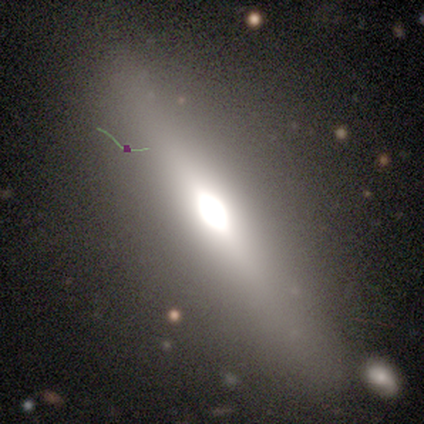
smooth_or_featured: smooth (p=0.60) [alt: featured or disk p=0.40]
how_rounded: in between (p=1.00)
merging: none (p=0.80) [alt: minor disturbance p=0.20]